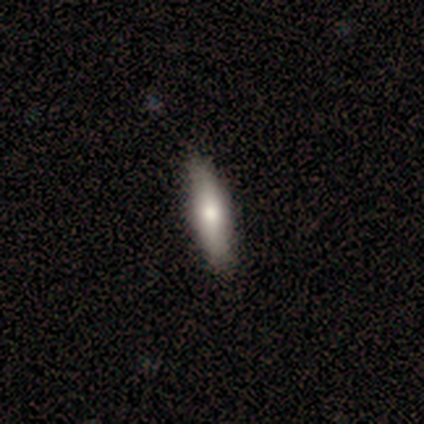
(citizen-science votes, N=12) A smooth galaxy with no disk features (75%) that is cigar-shaped (78%). Merging: none (92%).